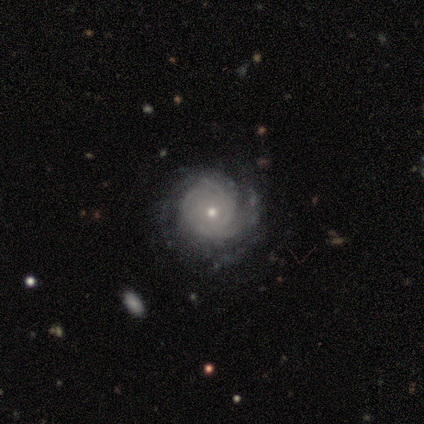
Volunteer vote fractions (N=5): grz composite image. It shows a featured or disk galaxy (100%) with no bar (60%), tight (60%) spiral arms (100%) and a small central bulge (60%). Merging: none (100%).